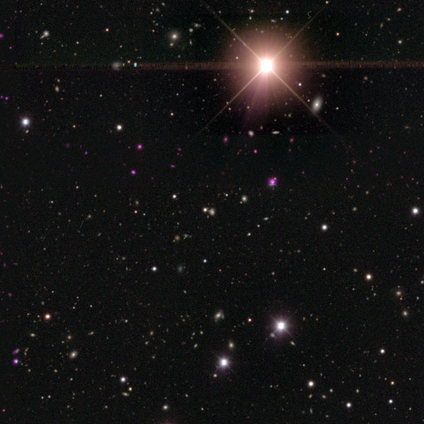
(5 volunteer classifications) Morphology: type=star or artifact (80%).